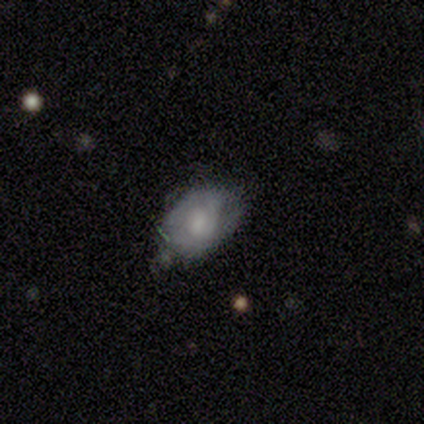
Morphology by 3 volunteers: smooth 33% (tied), featured or disk 33% (tied), star or artifact 33% (tied). Down the decision tree: how rounded — in between (100%); merging — none (50%, tied with minor disturbance).